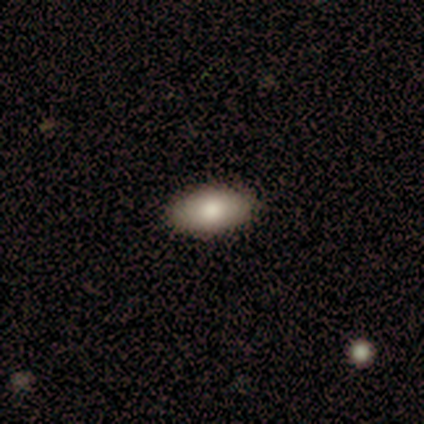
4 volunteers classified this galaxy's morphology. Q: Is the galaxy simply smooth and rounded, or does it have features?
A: smooth — 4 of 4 (100%).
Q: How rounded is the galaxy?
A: in between — 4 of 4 (100%).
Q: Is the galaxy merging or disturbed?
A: none — 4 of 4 (100%).